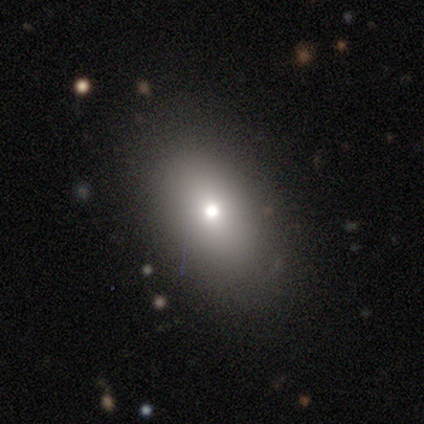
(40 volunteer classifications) smooth 72%, star or artifact 15%, featured or disk 12%. Down the decision tree: how rounded — in between (86%); merging — none (82%).